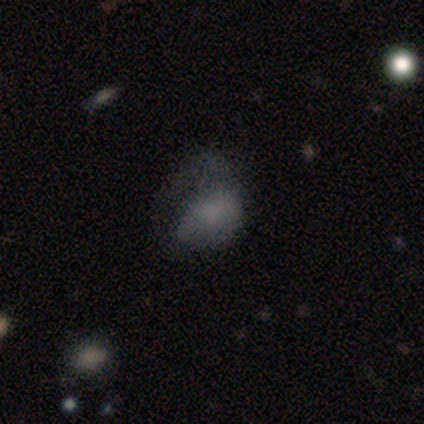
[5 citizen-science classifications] Smooth or featured?
  - smooth: 60% *
  - featured or disk: 20%
  - star or artifact: 20%
How rounded?
  - in between: 100% *
  - round: 0%
  - cigar-shaped: 0%
Merging?
  - major disturbance: 75% *
  - none: 25%
  - minor disturbance: 0%
  - merger: 0%